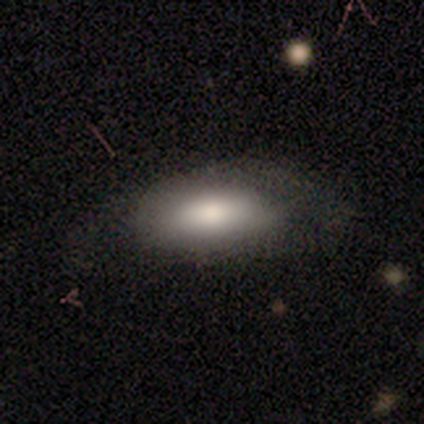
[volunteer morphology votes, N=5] A smooth galaxy with no disk features (100%) that is in between round and cigar-shaped (100%).

Vote fractions:
- Smooth or featured? smooth: 100% / featured or disk: 0% / star or artifact: 0%
- How rounded? in between: 100% / round: 0% / cigar-shaped: 0%
- Merging? minor disturbance: 80% / none: 20% / major disturbance: 0% / merger: 0%